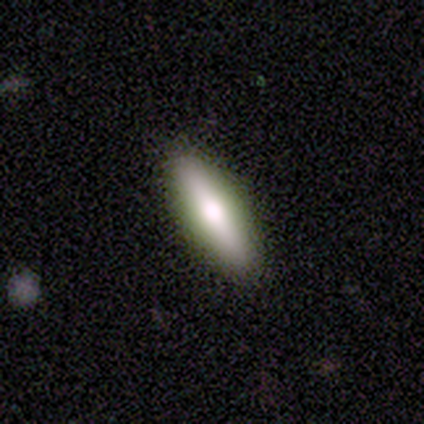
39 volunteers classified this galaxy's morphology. Smooth or featured?
  - smooth: 64% *
  - featured or disk: 33%
  - star or artifact: 3%
How rounded?
  - cigar-shaped: 64% *
  - in between: 36%
  - round: 0%
Merging?
  - none: 89% *
  - minor disturbance: 8%
  - major disturbance: 3%
  - merger: 0%